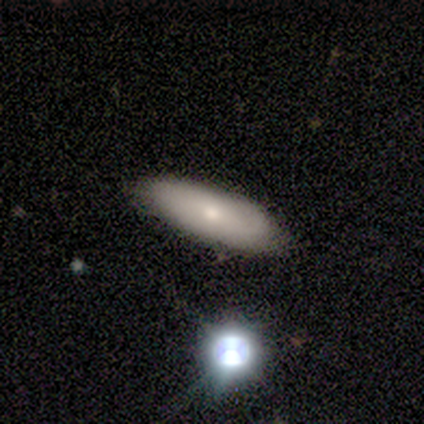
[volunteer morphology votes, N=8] A smooth galaxy with no disk features (50%) that is in between round and cigar-shaped (100%). Merging: none (100%).